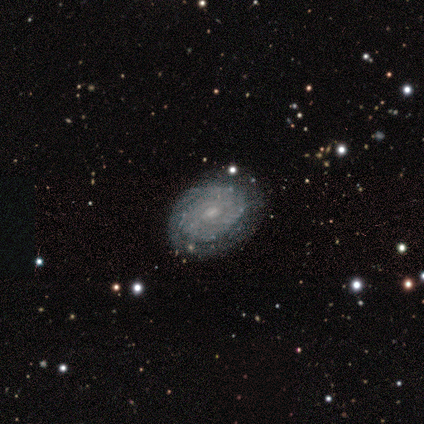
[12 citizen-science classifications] Volunteers were most divided on "bar" (2-way tie): weak: 45%, no: 45%, strong: 9%. More confident: edge-on disk — no (100%); smooth or featured — featured or disk (92%); spiral arms — yes (82%); spiral winding — tight (78%); spiral arm count — can't tell (78%); merging — none (67%); bulge size — small (64%).